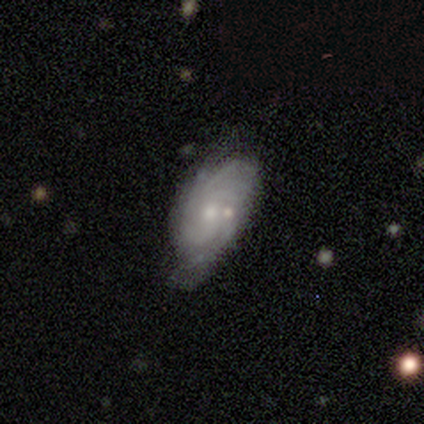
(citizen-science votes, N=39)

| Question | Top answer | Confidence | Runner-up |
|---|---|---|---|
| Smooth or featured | featured or disk | 82% | star or artifact (10%) |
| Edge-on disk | no | 94% | yes (6%) |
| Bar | no | 73% | weak (20%) |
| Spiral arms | yes | 97% | no (3%) |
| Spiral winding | tight | 69% | medium (24%) |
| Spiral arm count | can't tell | 34% | 2 (24%) |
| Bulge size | small | 60% | moderate (33%) |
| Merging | none | 54% | minor disturbance (23%) |